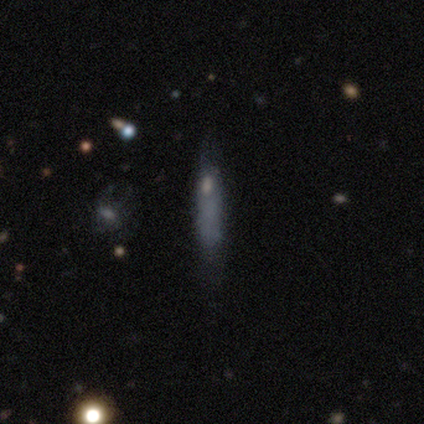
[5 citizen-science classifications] A smooth galaxy with no disk features (80%) that is cigar-shaped (100%). Merging: minor disturbance (40%, tied with major disturbance).